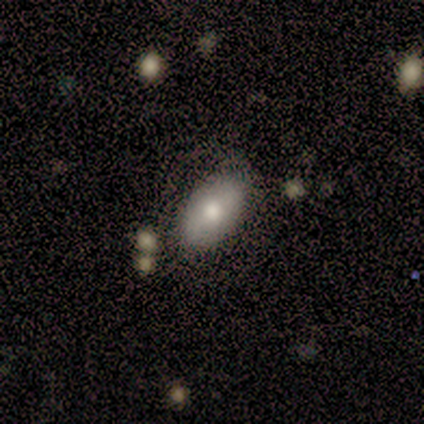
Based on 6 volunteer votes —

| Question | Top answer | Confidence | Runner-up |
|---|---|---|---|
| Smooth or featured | smooth | 50% | tied: featured or disk (50%) |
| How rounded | in between | 100% | — |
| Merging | none | 83% | major disturbance (17%) |